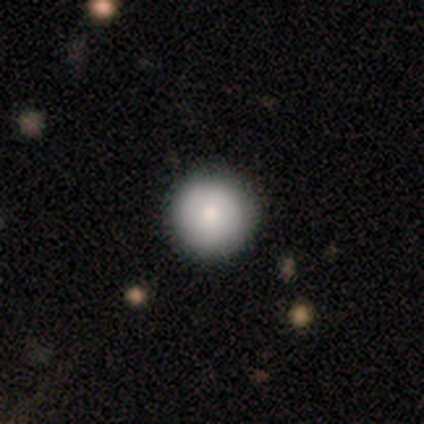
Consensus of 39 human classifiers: smooth 87%, featured or disk 8%, star or artifact 5%. Down the decision tree: how rounded — round (100%); merging — none (95%).